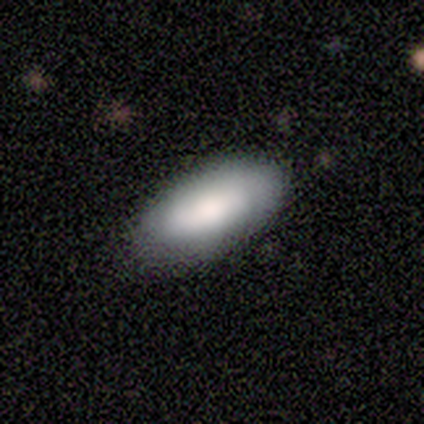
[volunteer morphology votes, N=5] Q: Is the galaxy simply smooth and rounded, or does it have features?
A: smooth — 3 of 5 (60%).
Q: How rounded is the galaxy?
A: in between — 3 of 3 (100%).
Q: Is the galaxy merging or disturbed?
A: none — 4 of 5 (80%).